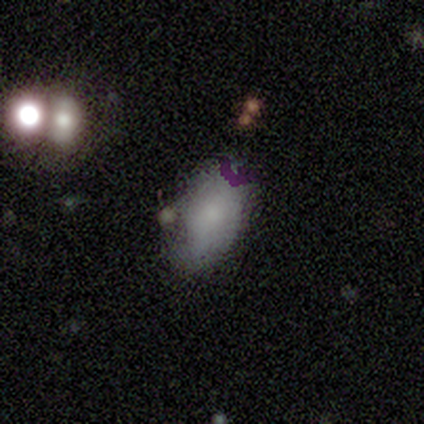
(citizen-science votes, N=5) Smooth or featured?
  - smooth: 80% *
  - featured or disk: 20%
  - star or artifact: 0%
How rounded?
  - in between: 100% *
  - round: 0%
  - cigar-shaped: 0%
Merging?
  - none: 80% *
  - minor disturbance: 20%
  - major disturbance: 0%
  - merger: 0%